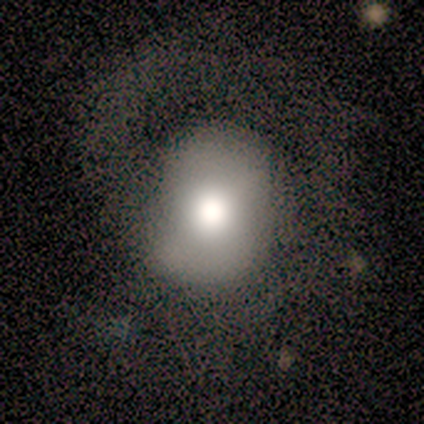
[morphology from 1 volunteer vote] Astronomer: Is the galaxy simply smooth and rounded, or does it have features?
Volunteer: featured or disk — 100%.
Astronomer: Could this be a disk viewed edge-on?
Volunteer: no — 100%.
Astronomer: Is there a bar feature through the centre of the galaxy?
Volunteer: no — 100%.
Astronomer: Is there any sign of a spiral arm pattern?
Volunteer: yes — 100%.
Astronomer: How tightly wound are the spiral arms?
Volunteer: medium — 100%.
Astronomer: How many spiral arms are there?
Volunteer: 1 — 100%.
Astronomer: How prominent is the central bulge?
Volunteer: large — 100%.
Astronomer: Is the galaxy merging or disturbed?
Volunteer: minor disturbance — 100%.